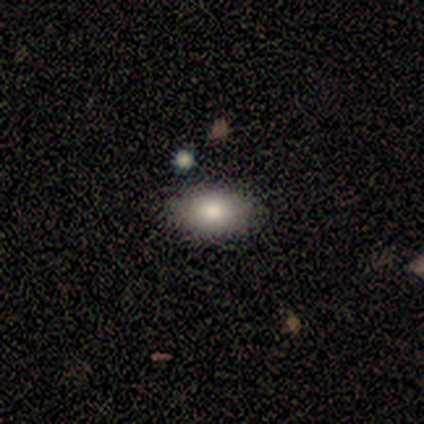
Smooth or featured?
  - smooth: 67% *
  - star or artifact: 33%
  - featured or disk: 0%
How rounded?
  - in between: 100% *
  - round: 0%
  - cigar-shaped: 0%
Merging?
  - none: 50% * (tied)
  - merger: 50% * (tied)
  - minor disturbance: 0%
  - major disturbance: 0%